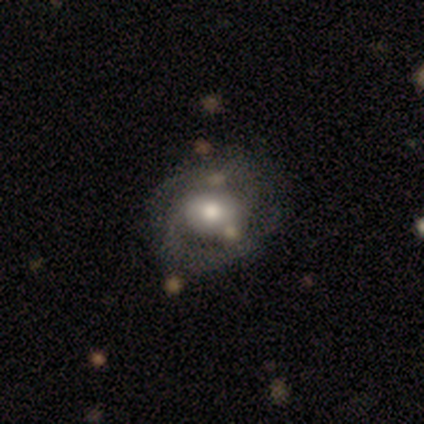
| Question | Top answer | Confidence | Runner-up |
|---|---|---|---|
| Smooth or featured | featured or disk | 60% | smooth (40%) |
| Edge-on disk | no | 100% | — |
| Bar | weak | 67% | no (33%) |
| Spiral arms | yes | 67% | no (33%) |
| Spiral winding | tight | 50% | tied: medium (50%) |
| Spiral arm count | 2 | 100% | — |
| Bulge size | moderate | 67% | small (33%) |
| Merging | none | 40% | tied: major disturbance (40%) |